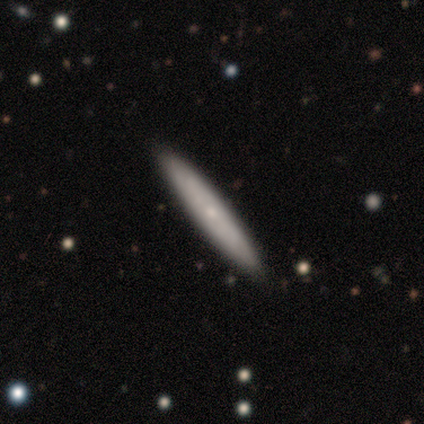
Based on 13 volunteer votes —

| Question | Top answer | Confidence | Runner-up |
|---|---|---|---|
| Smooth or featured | featured or disk | 62% | smooth (38%) |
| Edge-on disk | yes | 62% | no (38%) |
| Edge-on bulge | rounded | 80% | none (20%) |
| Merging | none | 92% | minor disturbance (8%) |